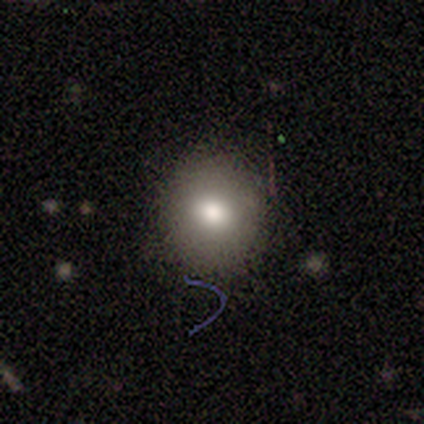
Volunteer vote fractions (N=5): A smooth galaxy with no disk features (100%) that is round (100%). Merging: none (100%).